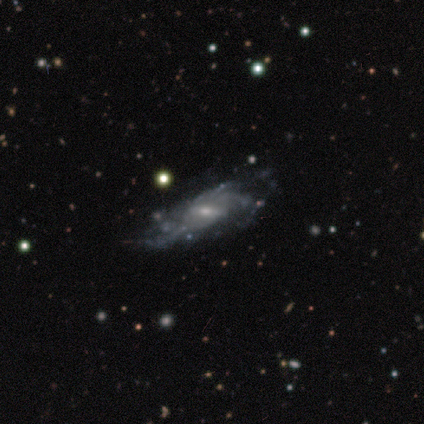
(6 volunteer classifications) Smooth or featured? featured or disk (83%)
Edge-on disk? no (100%)
Bar? weak (80%)
Spiral arms? yes (60%)
Spiral winding? loose (100%)
Spiral arm count? can't tell (67%)
Bulge size? small (80%)
Merging? minor disturbance (50%, tied with major disturbance)